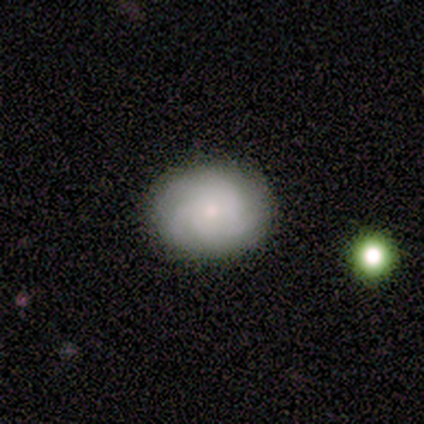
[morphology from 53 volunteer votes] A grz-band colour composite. It shows a smooth galaxy with no disk features (51%) that is in between round and cigar-shaped (56%). Merging: none (92%).